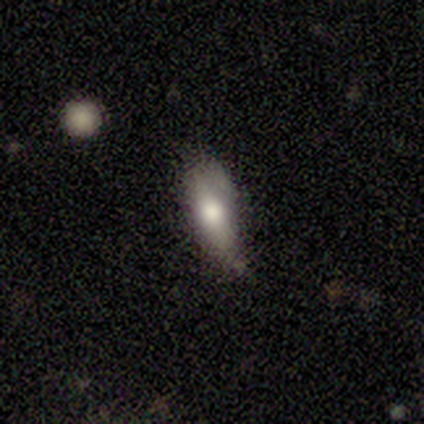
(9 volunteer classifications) A smooth galaxy with no disk features (67%) that is in between round and cigar-shaped (50%, tied with cigar-shaped). Merging: none (44%, tied with minor disturbance).